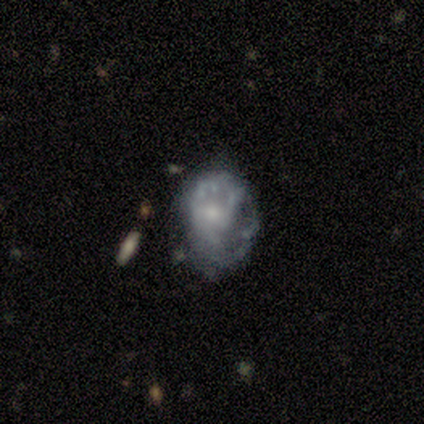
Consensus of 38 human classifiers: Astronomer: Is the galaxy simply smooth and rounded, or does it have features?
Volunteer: featured or disk — 71%.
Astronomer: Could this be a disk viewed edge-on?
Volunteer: no — 93%.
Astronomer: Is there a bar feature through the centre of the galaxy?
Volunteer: no — 72%.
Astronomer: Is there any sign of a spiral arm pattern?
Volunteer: no — 52% (runner-up: yes, 48%).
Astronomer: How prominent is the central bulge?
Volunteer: small — 60%.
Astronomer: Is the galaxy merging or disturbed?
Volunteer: none — 39% (runner-up: major disturbance, 36%).